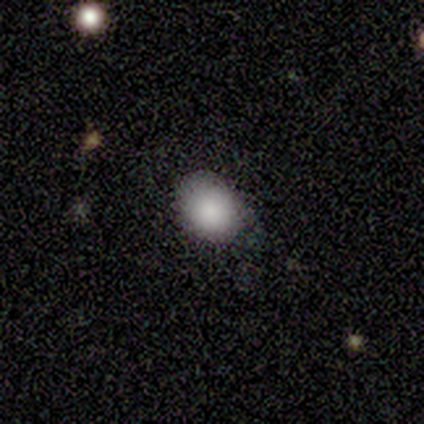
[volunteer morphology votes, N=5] Overall: smooth (80%). How rounded: in between (75%). Merging: none (40%, tied with minor disturbance).